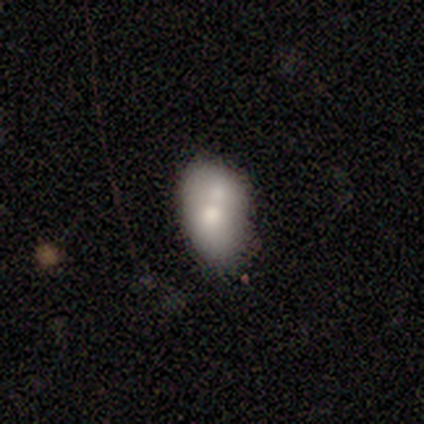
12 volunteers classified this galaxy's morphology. Smooth or featured?
  - smooth: 50% *
  - featured or disk: 33%
  - star or artifact: 17%
How rounded?
  - in between: 67% *
  - round: 33%
  - cigar-shaped: 0%
Merging?
  - merger: 40% *
  - minor disturbance: 30%
  - none: 20%
  - major disturbance: 10%